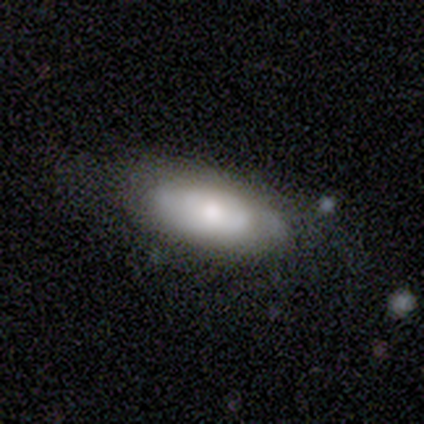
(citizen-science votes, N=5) Q: Smooth or featured?
A: smooth (60%); runner-up: featured or disk (40%)
Q: How rounded?
A: in between (67%); runner-up: round (33%)
Q: Merging?
A: none (80%); runner-up: minor disturbance (20%)